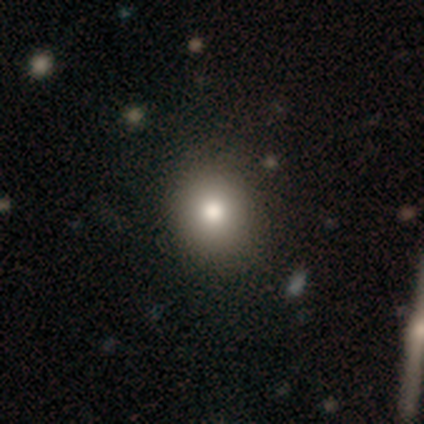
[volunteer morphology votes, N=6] type=smooth (83%); roundness=round (80%); merging=none (40%, tied with minor disturbance).